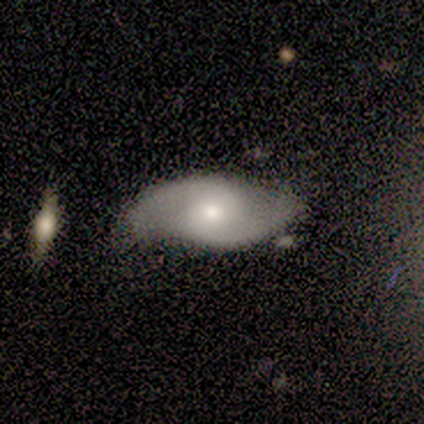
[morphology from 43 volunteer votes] Volunteers were most divided on "spiral winding": medium: 66%, loose: 34%, tight: 0%. More confident: spiral arm count — 2 (100%); edge-on disk — no (97%); spiral arms — yes (91%); smooth or featured — featured or disk (84%); merging — none (76%); bar — no (63%); bulge size — moderate (60%).